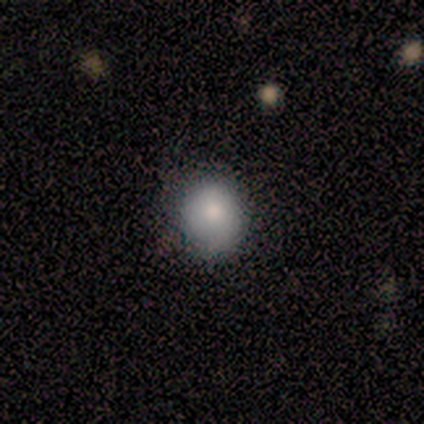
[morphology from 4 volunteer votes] Smooth or featured? smooth (100%)
How rounded? round (50%)
Merging? none (75%)